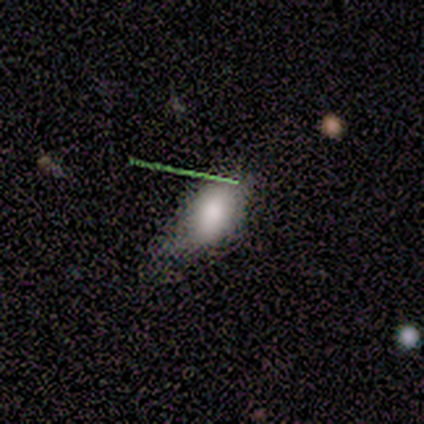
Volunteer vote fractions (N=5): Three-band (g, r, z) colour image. It shows a smooth galaxy with no disk features (100%) that is in between round and cigar-shaped (80%). Merging: none (60%).